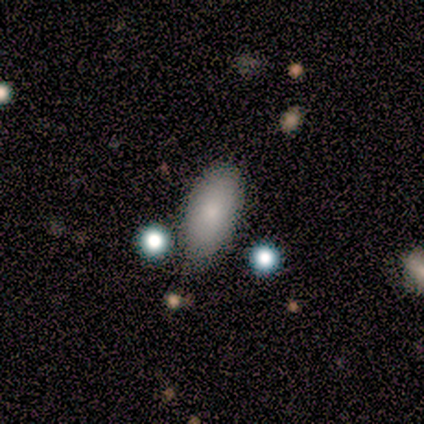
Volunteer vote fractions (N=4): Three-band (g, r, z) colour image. It shows a smooth galaxy with no disk features (75%) that is in between round and cigar-shaped (67%). Merging: none (100%).